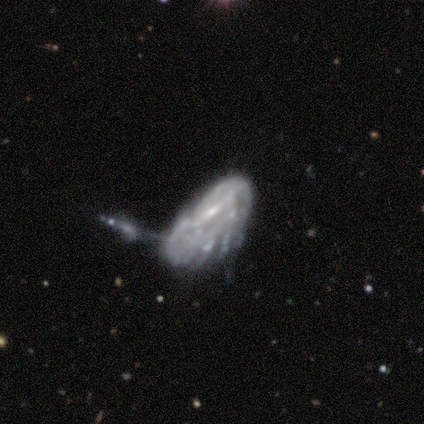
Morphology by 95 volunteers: Overall: featured or disk (74%). Edge-on disk: no (97%). Bar: no (40%; strong 34%). Spiral arms: yes (53%; no 47%). Spiral arm count: can't tell (78%). Spiral winding: tight (53%; medium 31%). Bulge size: small (54%; moderate 24%). Merging: merger (44%; major disturbance 30%).